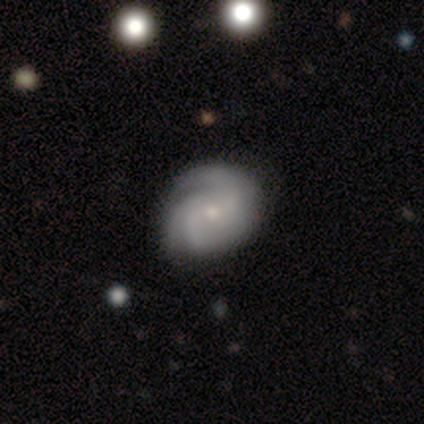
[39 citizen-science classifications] This appears to be a featured or disk galaxy (85%) with no bar (64%), 3 (38%) medium (41%) spiral arms (97%) and a small central bulge (64%). Merging: none (42%).